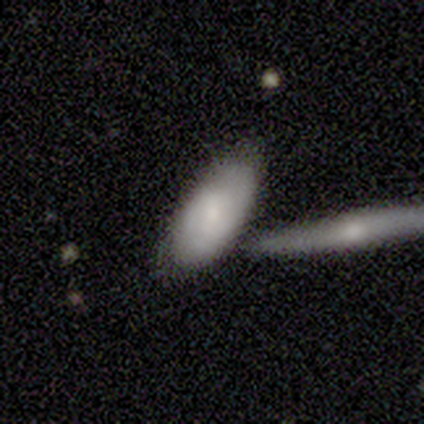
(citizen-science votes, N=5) This appears to be a smooth galaxy with no disk features (80%) that is in between round and cigar-shaped (100%). Merging: none (50%).